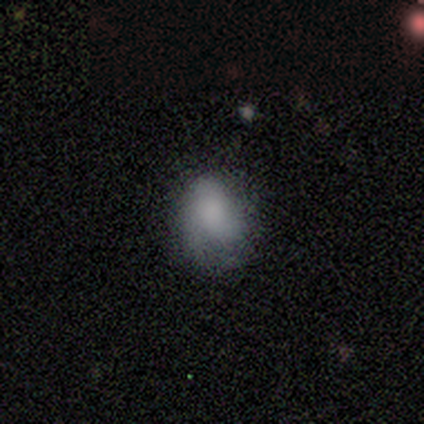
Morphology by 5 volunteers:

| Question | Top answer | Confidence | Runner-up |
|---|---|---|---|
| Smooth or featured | smooth | 100% | — |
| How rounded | round | 80% | in between (20%) |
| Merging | none | 80% | major disturbance (20%) |